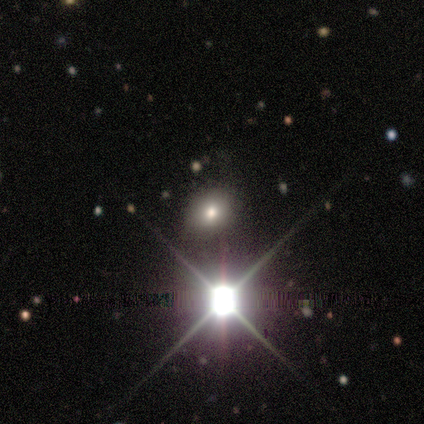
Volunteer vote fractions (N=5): Overall: star or artifact (60%; smooth 40%).